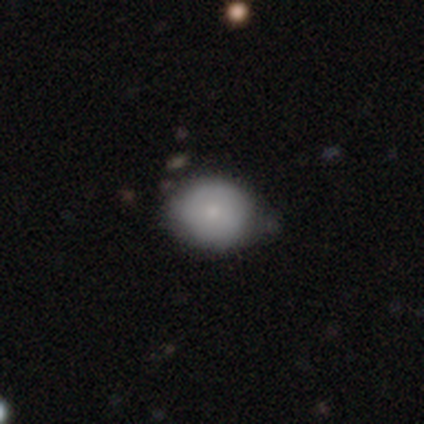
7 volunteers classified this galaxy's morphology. Smooth or featured?
  - smooth: 71% *
  - featured or disk: 29%
  - star or artifact: 0%
How rounded?
  - round: 60% *
  - in between: 40%
  - cigar-shaped: 0%
Merging?
  - none: 43% * (tied)
  - minor disturbance: 43% * (tied)
  - major disturbance: 14%
  - merger: 0%